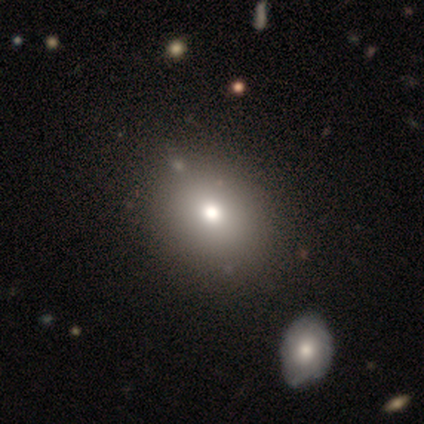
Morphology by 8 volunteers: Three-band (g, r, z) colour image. It shows a smooth galaxy with no disk features (75%) that is in between round and cigar-shaped (83%). Merging: none (75%).